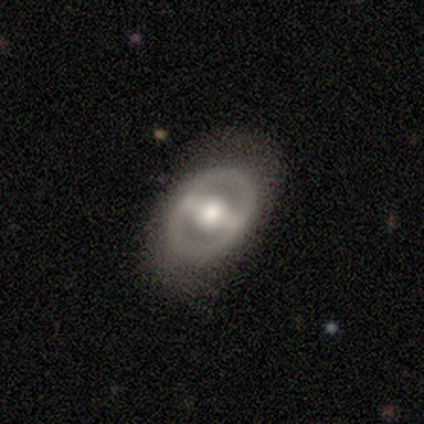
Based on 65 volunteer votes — A featured or disk galaxy (75%) with a strong bar (83%), no spiral arms (62%) and a moderate central bulge (67%).

Vote fractions:
- Smooth or featured? featured or disk: 75% / smooth: 23% / star or artifact: 2%
- Edge-on disk? no: 98% / yes: 2%
- Bar? strong: 83% / weak: 10% / no: 6%
- Spiral arms? no: 62% / yes: 38%
- Bulge size? moderate: 67% / large: 33% / dominant: 0% / small: 0% / none: 0%
- Merging? none: 77% / minor disturbance: 12% / major disturbance: 9% / merger: 2%